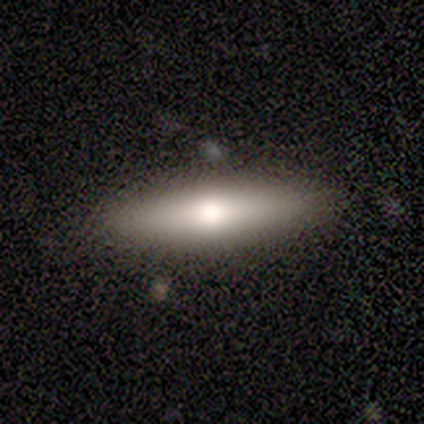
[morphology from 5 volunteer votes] Smooth or featured? 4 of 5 (80%) said smooth. How rounded? 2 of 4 (50%, tied with cigar-shaped) said in between. Merging? 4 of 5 (80%) said none.